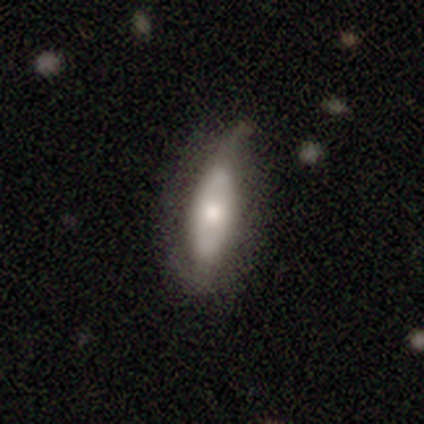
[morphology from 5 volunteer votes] Smooth or featured?
  - featured or disk: 60% *
  - smooth: 40%
  - star or artifact: 0%
Edge-on disk?
  - no: 100% *
  - yes: 0%
Bar?
  - strong: 33% * (tied)
  - weak: 33% * (tied)
  - no: 33% * (tied)
Spiral arms?
  - no: 67% *
  - yes: 33%
Bulge size?
  - moderate: 67% *
  - small: 33%
  - dominant: 0%
  - large: 0%
  - none: 0%
Merging?
  - none: 60% *
  - minor disturbance: 40%
  - major disturbance: 0%
  - merger: 0%